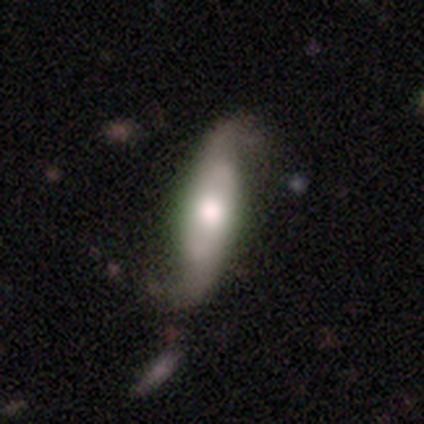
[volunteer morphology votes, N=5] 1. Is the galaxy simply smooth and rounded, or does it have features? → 60% smooth, 40% featured or disk, 0% star or artifact.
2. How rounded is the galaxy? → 67% cigar-shaped, 33% in between, 0% round.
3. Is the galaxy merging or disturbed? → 60% minor disturbance, 40% none, 0% major disturbance, 0% merger.